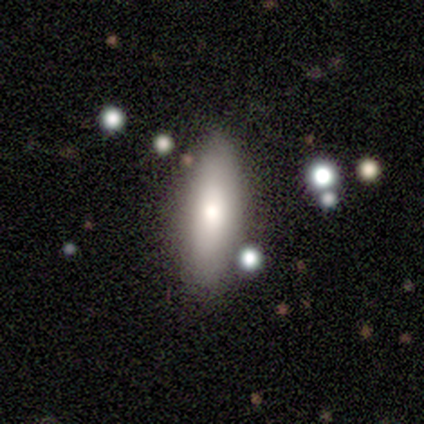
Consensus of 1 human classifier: A smooth galaxy with no disk features (100%) that is in between round and cigar-shaped (100%). Merging: none (100%).